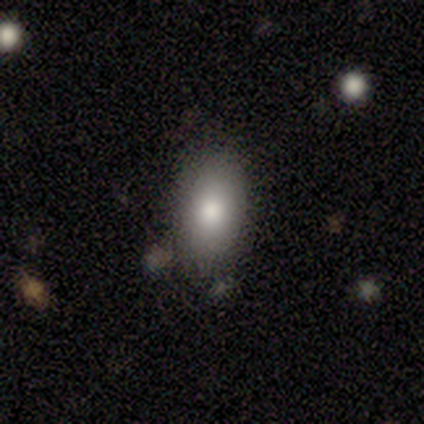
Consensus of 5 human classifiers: smooth-or-featured: smooth: 80% | featured or disk: 20% | star or artifact: 0%
  how-rounded: in between: 100% | round: 0% | cigar-shaped: 0%
  merging: none: 80% | merger: 20% | minor disturbance: 0% | major disturbance: 0%